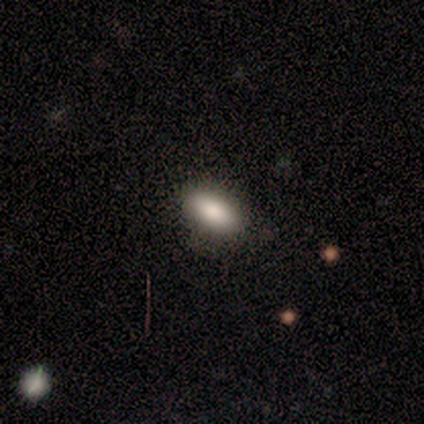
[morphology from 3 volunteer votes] This appears to be a smooth galaxy with no disk features (67%) that is in between round and cigar-shaped (50%, tied with cigar-shaped). Merging: none (50%, tied with major disturbance).